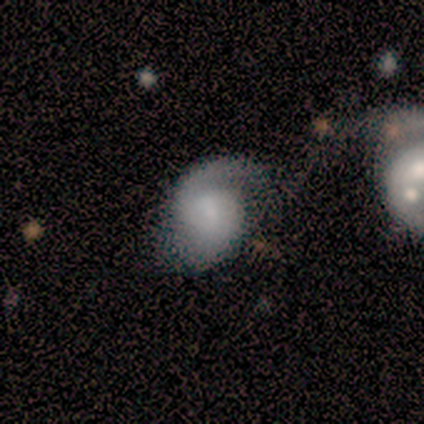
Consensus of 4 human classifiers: Morphology: type=featured or disk (100%); edge-on=no (100%); bar=weak (50%, tied with no); spiral arms=yes (100%); winding=loose (75%); arm count=2 (50%); bulge=dominant (25%, tied with large, moderate and none); merging=minor disturbance (50%).